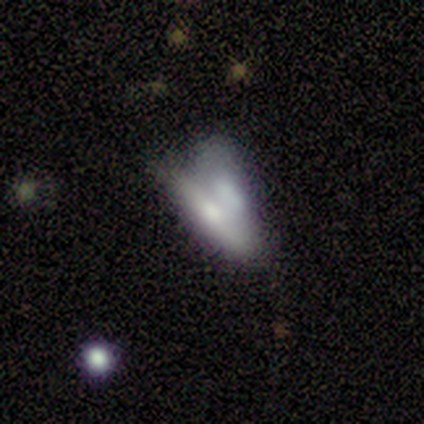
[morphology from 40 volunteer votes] smooth-or-featured: featured or disk: 50% | smooth: 42% | star or artifact: 8%
  disk-edge-on: yes: 70% | no: 30%
    edge-on-bulge: rounded: 43% | boxy: 29% | none: 29%
  merging: merger: 46% | none: 35% | minor disturbance: 14% | major disturbance: 5%